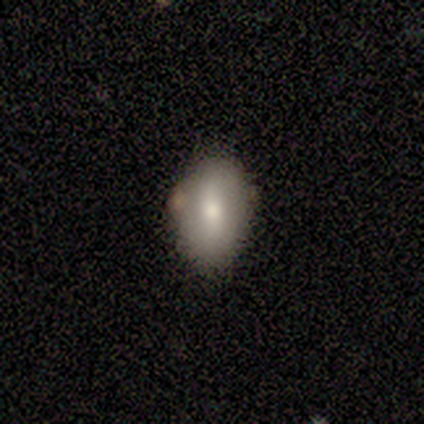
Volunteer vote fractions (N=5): smooth-or-featured: smooth: 40% (tied) | featured or disk: 40% (tied) | star or artifact: 20%
  how-rounded: in between: 100% | round: 0% | cigar-shaped: 0%
  merging: none: 75% | major disturbance: 25% | minor disturbance: 0% | merger: 0%